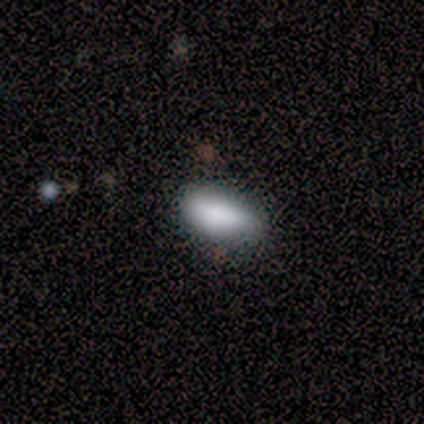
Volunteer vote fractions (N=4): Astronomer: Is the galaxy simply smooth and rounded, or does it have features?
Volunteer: smooth — 75%.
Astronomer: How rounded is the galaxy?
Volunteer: in between — 100%.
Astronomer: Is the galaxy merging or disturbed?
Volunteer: none — 50%, tied with minor disturbance at 50%.